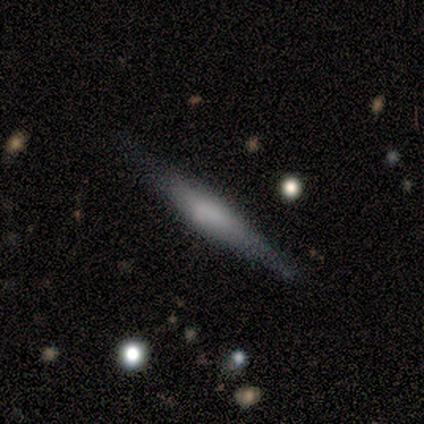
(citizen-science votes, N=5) A smooth galaxy with no disk features (60%) that is cigar-shaped (100%). Merging: none (60%).